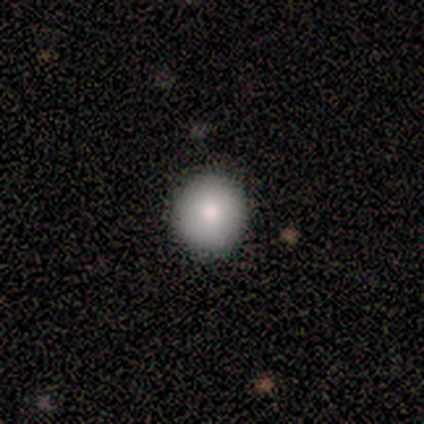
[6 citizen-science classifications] smooth-or-featured: smooth: 100% | featured or disk: 0% | star or artifact: 0%
  how-rounded: round: 83% | in between: 17% | cigar-shaped: 0%
  merging: none: 67% | minor disturbance: 33% | major disturbance: 0% | merger: 0%